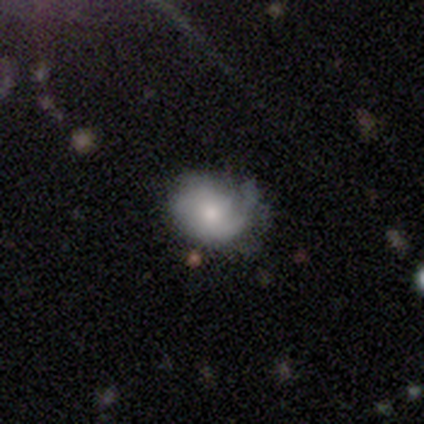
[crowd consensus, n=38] Smooth or featured?
  - smooth: 50% *
  - featured or disk: 45%
  - star or artifact: 5%
How rounded?
  - round: 53% *
  - in between: 47%
  - cigar-shaped: 0%
Merging?
  - none: 61% *
  - minor disturbance: 33%
  - major disturbance: 3%
  - merger: 3%